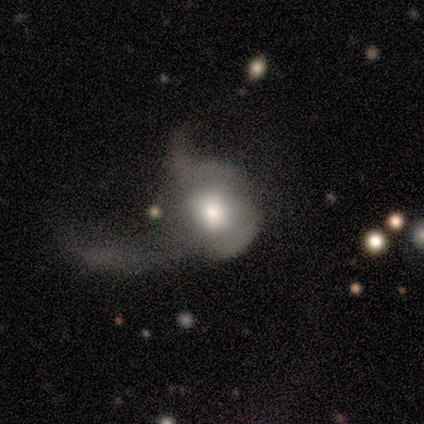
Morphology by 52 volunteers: A smooth galaxy with no disk features (48%) that is round (72%). Merging: major disturbance (79%).